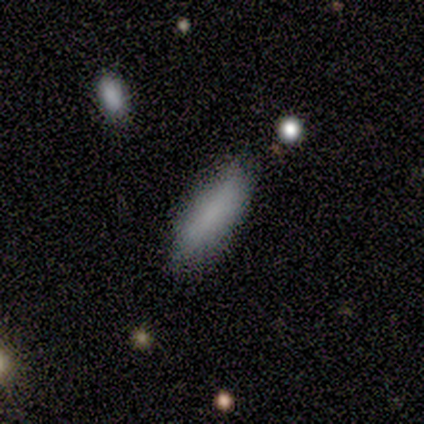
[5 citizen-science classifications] Smooth or featured: smooth — 80% (featured or disk — 20%)
How rounded: in between — 75% (cigar-shaped — 25%)
Merging: none — 100%